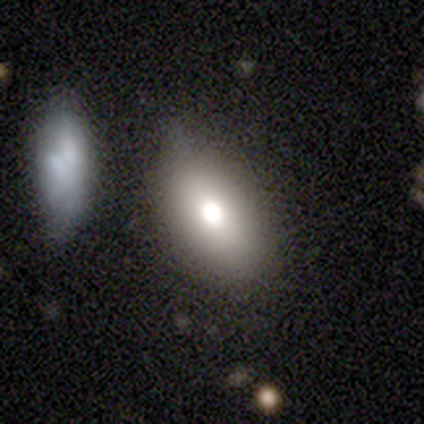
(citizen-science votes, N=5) This appears to be a smooth galaxy with no disk features (100%) that is in between round and cigar-shaped (80%). Merging: minor disturbance (40%).